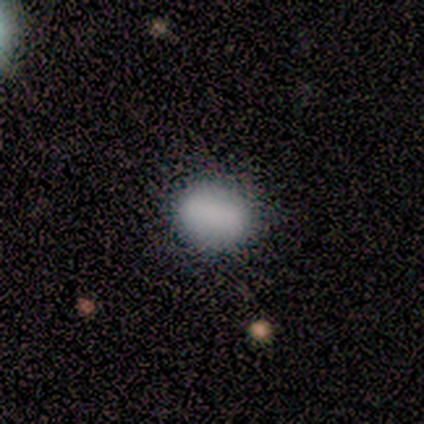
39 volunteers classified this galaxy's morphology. This appears to be a smooth galaxy with no disk features (82%) that is in between round and cigar-shaped (56%). Merging: none (86%).